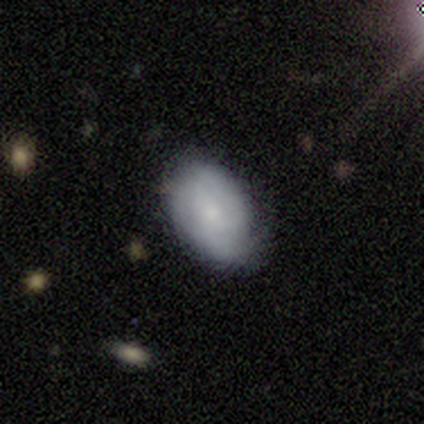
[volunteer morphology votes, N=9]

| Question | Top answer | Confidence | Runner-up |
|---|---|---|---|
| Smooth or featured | smooth | 56% | featured or disk (44%) |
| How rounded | in between | 100% | — |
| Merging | none | 67% | minor disturbance (33%) |